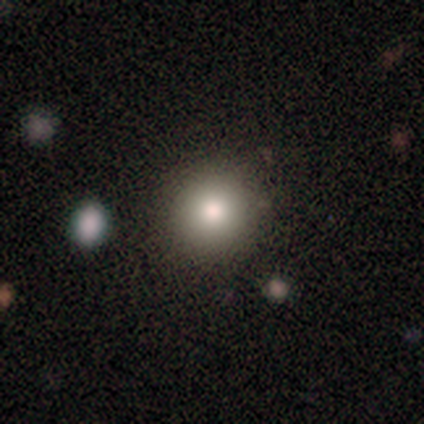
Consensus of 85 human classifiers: Q: Smooth or featured?
A: smooth (75%); runner-up: featured or disk (15%)
Q: How rounded?
A: round (97%); runner-up: in between (3%)
Q: Merging?
A: none (87%); runner-up: minor disturbance (9%)